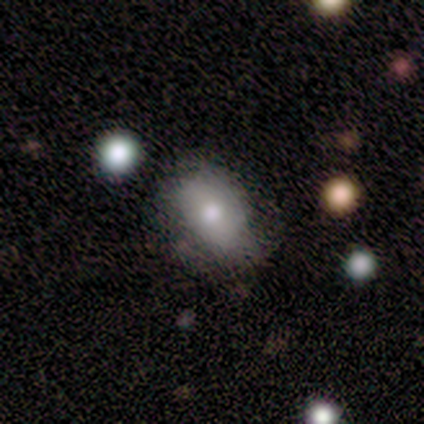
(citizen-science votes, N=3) Smooth or featured?
  - star or artifact: 67% *
  - smooth: 33%
  - featured or disk: 0%